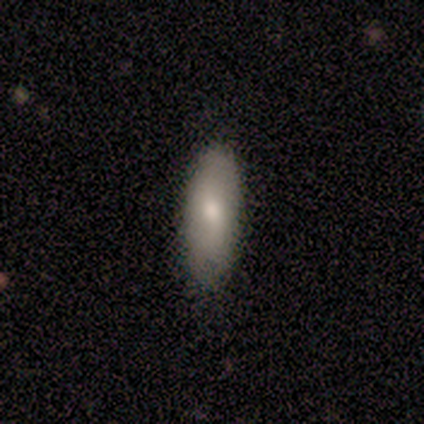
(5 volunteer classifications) smooth 60%, featured or disk 20%, star or artifact 20%. Down the decision tree: how rounded — in between (100%); merging — none (75%).